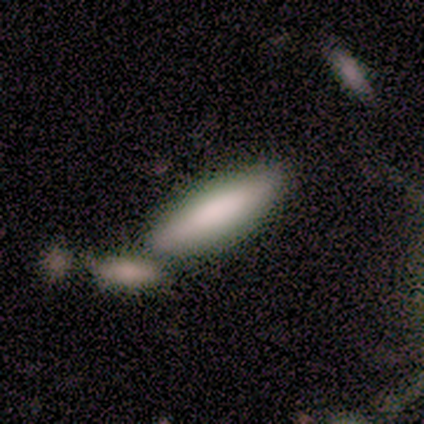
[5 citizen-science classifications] Morphology: type=smooth (100%); roundness=cigar-shaped (60%); merging=none (60%).